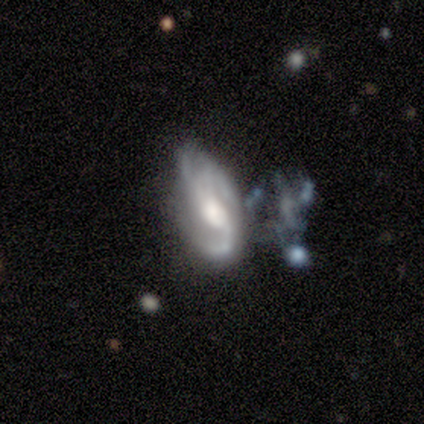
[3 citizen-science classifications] Smooth or featured: featured or disk — 67% (star or artifact — 33%)
Edge-on disk: no — 100%
Bar: strong — 50% (tied with weak — 50%)
Spiral arms: yes — 100%
Spiral winding: medium — 50% (tied with loose — 50%)
Spiral arm count: 2 — 50% (tied with can't tell — 50%)
Bulge size: large — 50% (tied with moderate — 50%)
Merging: major disturbance — 50% (tied with merger — 50%)